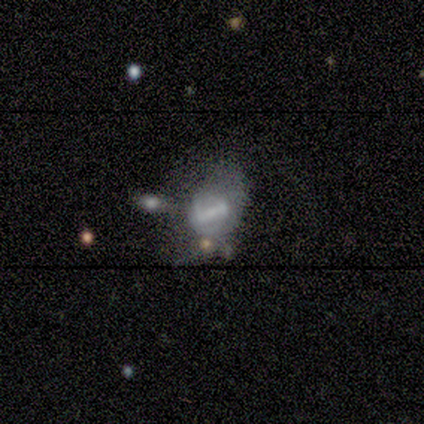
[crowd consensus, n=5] This appears to be a featured or disk galaxy (40%, tied with star or artifact) with a strong bar (50%, tied with no), no spiral arms (100%) and no central bulge (100%). Merging: none (67%).